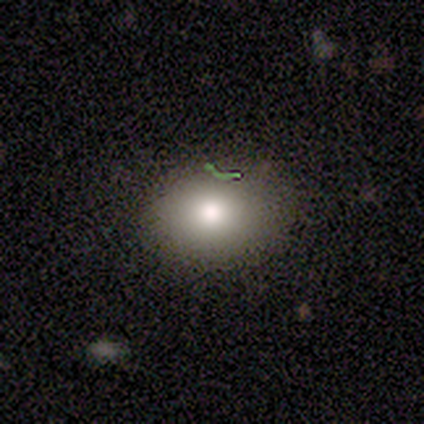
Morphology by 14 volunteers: Smooth or featured? 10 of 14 (71%) said smooth. How rounded? 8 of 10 (80%) said in between. Merging? 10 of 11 (91%) said none.